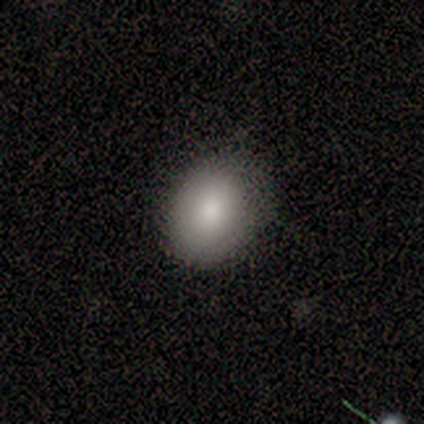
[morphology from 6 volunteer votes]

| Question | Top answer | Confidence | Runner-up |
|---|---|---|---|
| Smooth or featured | smooth | 100% | — |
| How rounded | round | 50% | tied: in between (50%) |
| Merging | none | 67% | minor disturbance (33%) |